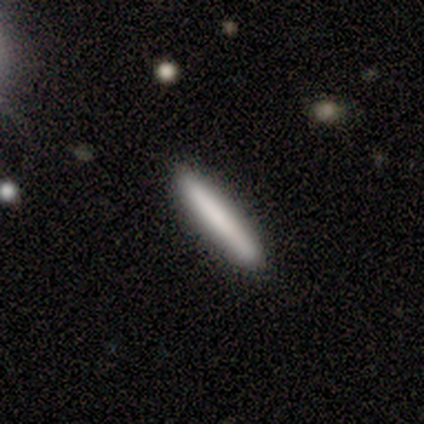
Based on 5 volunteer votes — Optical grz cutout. It shows a smooth galaxy with no disk features (100%) that is cigar-shaped (100%). Merging: none (80%).